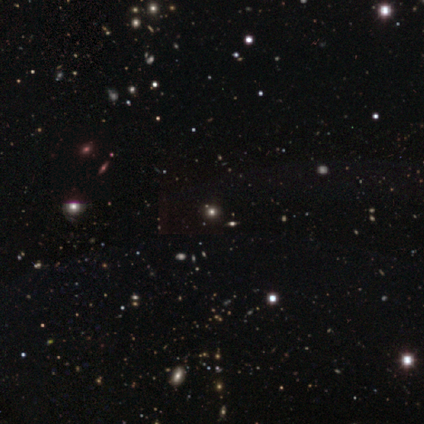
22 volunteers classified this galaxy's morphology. This is likely a star or artifact rather than a galaxy (68%).